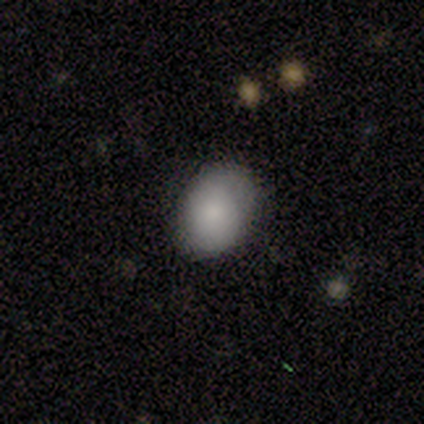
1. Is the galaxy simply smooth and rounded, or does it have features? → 100% smooth, 0% featured or disk, 0% star or artifact.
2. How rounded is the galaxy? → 50% round (tied), 50% in between (tied), 0% cigar-shaped.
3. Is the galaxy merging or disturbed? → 75% none, 25% minor disturbance, 0% major disturbance, 0% merger.